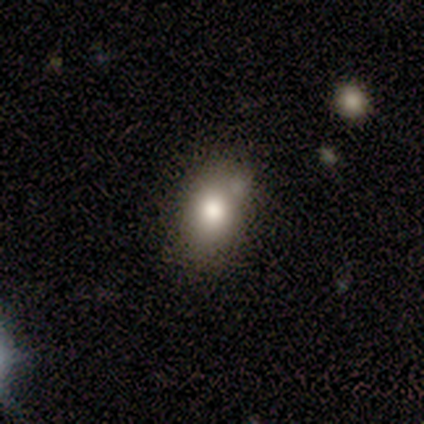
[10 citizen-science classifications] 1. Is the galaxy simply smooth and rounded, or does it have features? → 60% smooth, 30% star or artifact, 10% featured or disk.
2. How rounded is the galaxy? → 100% in between, 0% round, 0% cigar-shaped.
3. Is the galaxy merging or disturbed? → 57% none, 43% minor disturbance, 0% major disturbance, 0% merger.